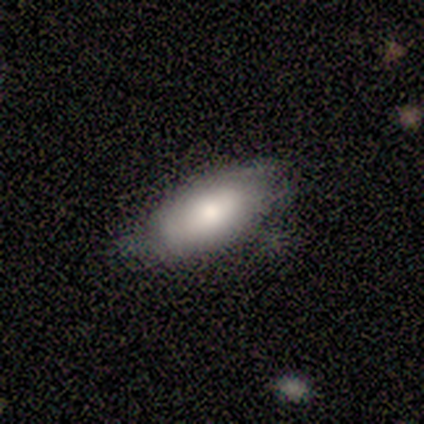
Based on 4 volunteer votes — This is clearly a smooth galaxy (100%). How rounded: clearly in between (100%). Merging: likely none (75%).